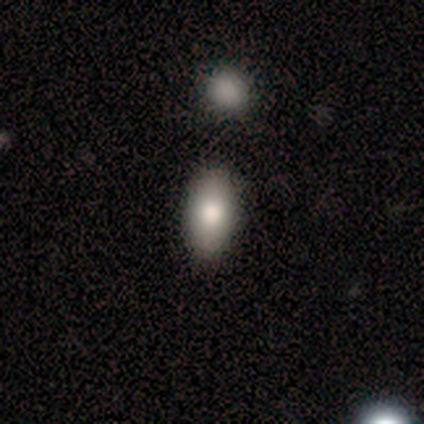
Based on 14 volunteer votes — A smooth galaxy with no disk features (79%) that is in between round and cigar-shaped (82%). Merging: none (64%).